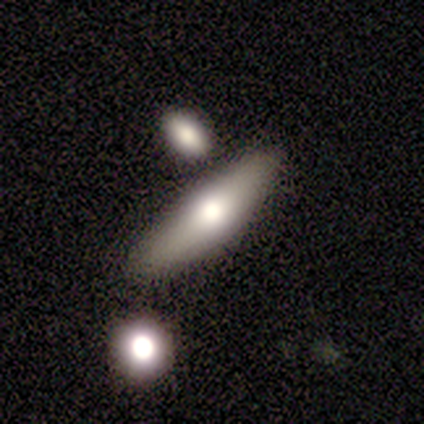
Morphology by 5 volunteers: Smooth or featured: smooth — 60% (featured or disk — 20%)
How rounded: cigar-shaped — 67% (in between — 33%)
Merging: none — 75% (merger — 25%)